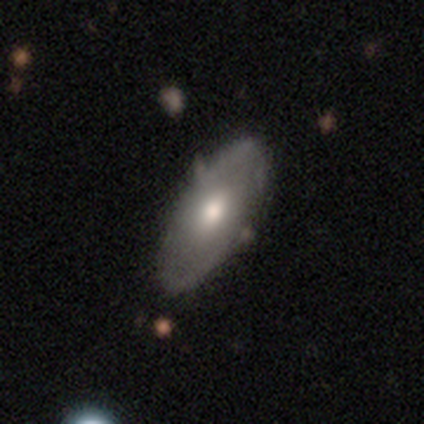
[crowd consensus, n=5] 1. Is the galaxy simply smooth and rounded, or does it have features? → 80% featured or disk, 20% smooth, 0% star or artifact.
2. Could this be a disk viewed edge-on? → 100% no, 0% yes.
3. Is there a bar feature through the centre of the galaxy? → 100% no, 0% strong, 0% weak.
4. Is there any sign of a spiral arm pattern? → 75% no, 25% yes.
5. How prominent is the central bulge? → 100% moderate, 0% dominant, 0% large, 0% small, 0% none.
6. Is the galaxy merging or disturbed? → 60% none, 40% minor disturbance, 0% major disturbance, 0% merger.